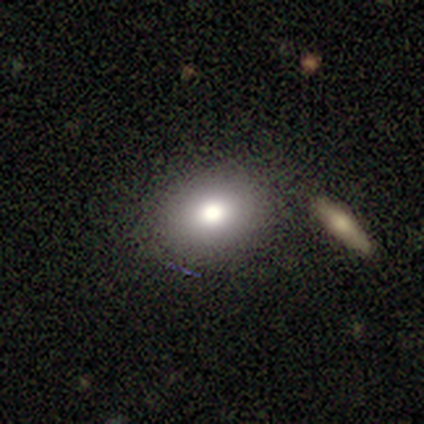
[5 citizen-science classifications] Morphology: type=smooth (80%); roundness=round (50%, tied with in between); merging=none (100%).